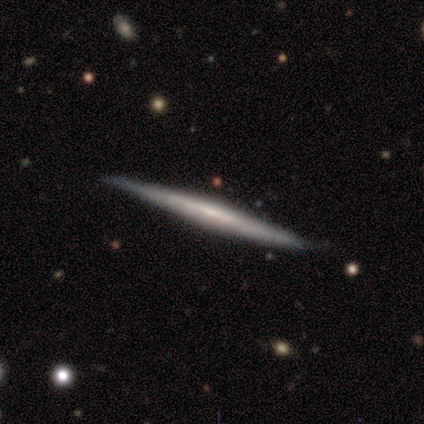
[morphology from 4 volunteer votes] Smooth or featured? featured or disk (100%)
Edge-on disk? yes (100%)
Edge-on bulge? none (50%)
Merging? none (100%)